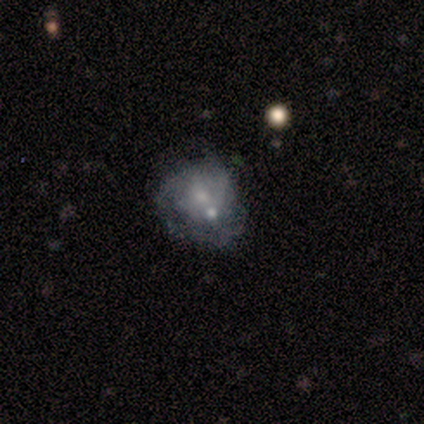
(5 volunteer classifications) Volunteers were most divided on "merging" (2-way tie): minor disturbance: 40%, major disturbance: 40%, none: 20%, merger: 0%. More confident: how rounded — round (67%); smooth or featured — smooth (60%).